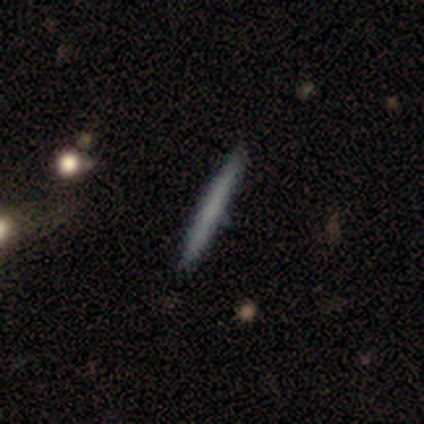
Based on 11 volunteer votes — A smooth galaxy with no disk features (64%) that is cigar-shaped (100%). Merging: none (82%).